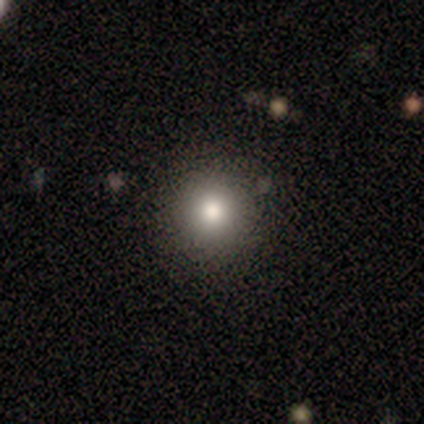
smooth 67%, star or artifact 21%, featured or disk 13%. Down the decision tree: how rounded — round (96%); merging — none (84%).